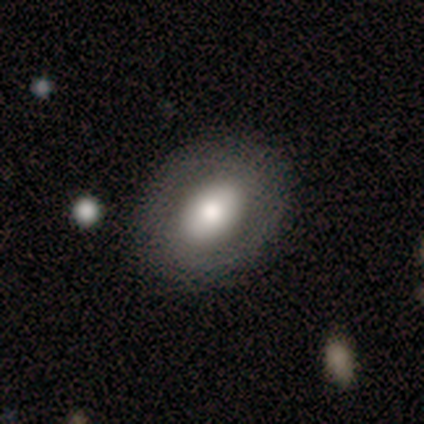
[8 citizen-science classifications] Overall: smooth (62%; featured or disk 38%). How rounded: in between (80%). Merging: none (100%).